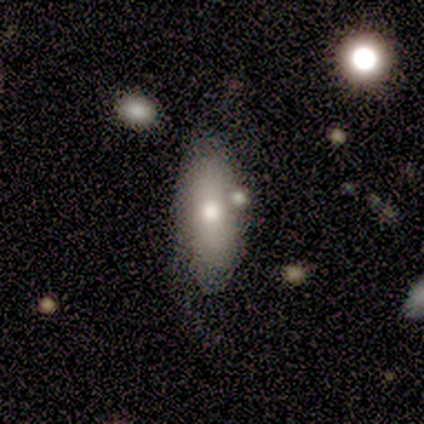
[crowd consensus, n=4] Q: Smooth or featured?
A: smooth (75%); runner-up: star or artifact (25%)
Q: How rounded?
A: in between (100%)
Q: Merging?
A: none (67%); runner-up: minor disturbance (33%)